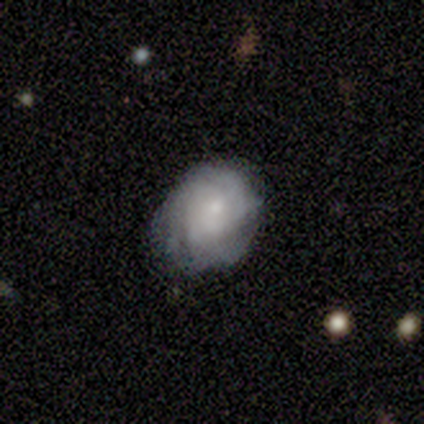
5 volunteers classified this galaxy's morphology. Smooth or featured: smooth — 80% (featured or disk — 20%)
How rounded: round — 75% (in between — 25%)
Merging: none — 60% (minor disturbance — 40%)